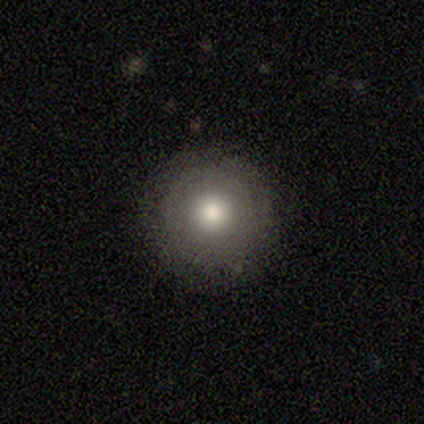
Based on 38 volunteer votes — Overall: smooth (71%). How rounded: round (100%). Merging: none (91%).